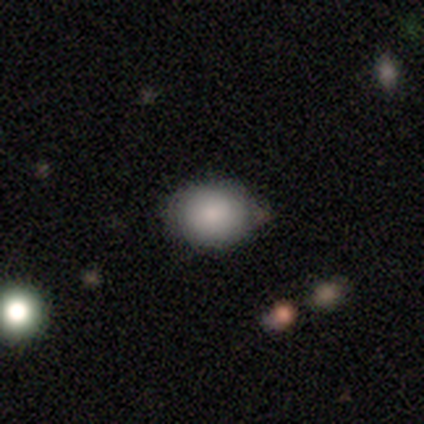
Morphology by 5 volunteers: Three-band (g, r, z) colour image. It shows a smooth galaxy with no disk features (100%) that is in between round and cigar-shaped (60%). Merging: none (60%).